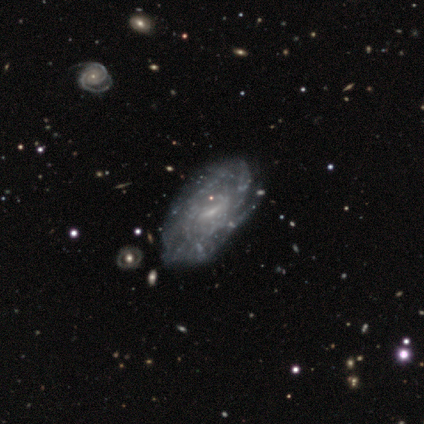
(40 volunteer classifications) Smooth or featured? 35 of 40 (88%) said featured or disk. Edge-on disk? 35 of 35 (100%) said no. Bar? 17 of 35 (49%) said weak. Spiral arms? 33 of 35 (94%) said yes. Spiral winding? 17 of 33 (52%) said tight. Spiral arm count? 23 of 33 (70%) said can't tell. Bulge size? 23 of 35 (66%) said small. Merging? 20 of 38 (53%) said none.